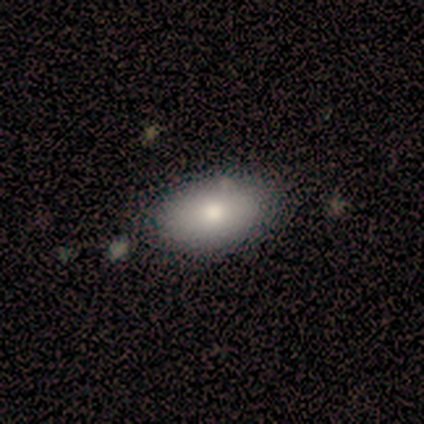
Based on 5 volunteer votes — Smooth or featured? smooth (80%)
How rounded? in between (100%)
Merging? none (75%)